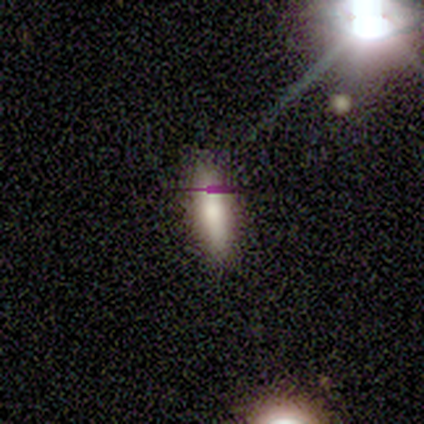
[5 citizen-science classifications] Overall: smooth (100%). How rounded: cigar-shaped (80%). Merging: none (100%).